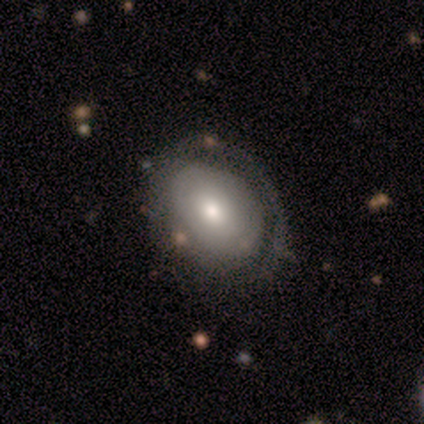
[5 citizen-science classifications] Q: Smooth or featured?
A: smooth (60%); runner-up: featured or disk (40%)
Q: How rounded?
A: in between (100%)
Q: Merging?
A: none (40%); tied with: major disturbance (40%)